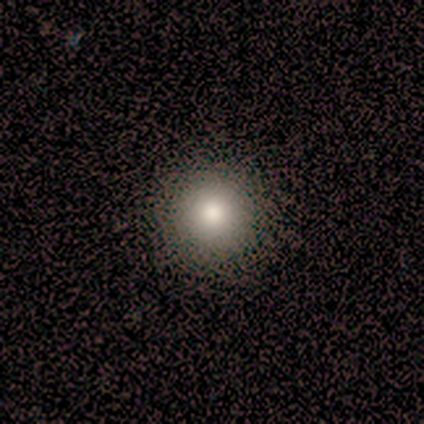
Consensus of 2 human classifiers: This appears to be a smooth galaxy with no disk features (100%) that is round (100%). Merging: none (100%).